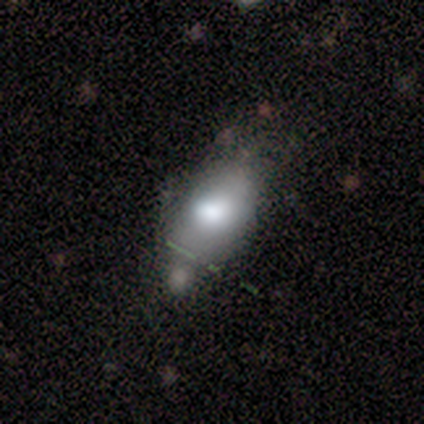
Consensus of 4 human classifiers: Smooth or featured: smooth — 100%
How rounded: in between — 100%
Merging: minor disturbance — 50% (none — 25%)